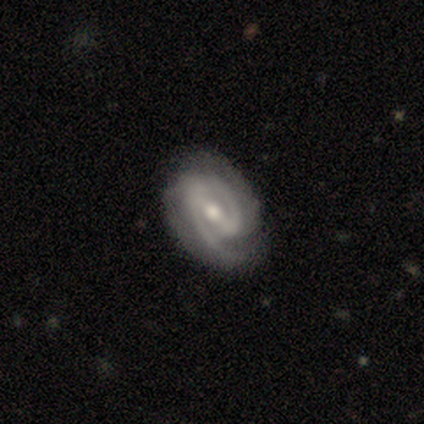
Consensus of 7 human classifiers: A featured or disk galaxy (100%) with a weak bar (50%), 2 (67%) tight (50%, tied with medium) spiral arms (100%) and a moderate central bulge (67%). Merging: none (86%).